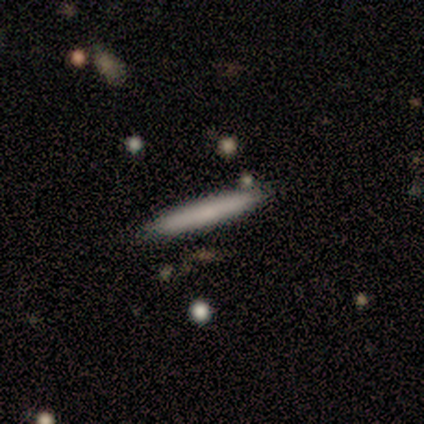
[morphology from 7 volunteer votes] A smooth galaxy with no disk features (43%, tied with featured or disk) that is cigar-shaped (100%). Merging: none (100%).